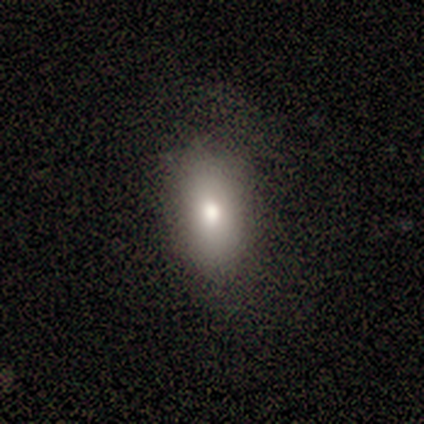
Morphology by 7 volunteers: A smooth galaxy with no disk features (43%, tied with featured or disk) that is in between round and cigar-shaped (100%).

Vote fractions:
- Smooth or featured? smooth: 43% (tied) / featured or disk: 43% (tied) / star or artifact: 14%
- How rounded? in between: 100% / round: 0% / cigar-shaped: 0%
- Merging? none: 83% / minor disturbance: 17% / major disturbance: 0% / merger: 0%